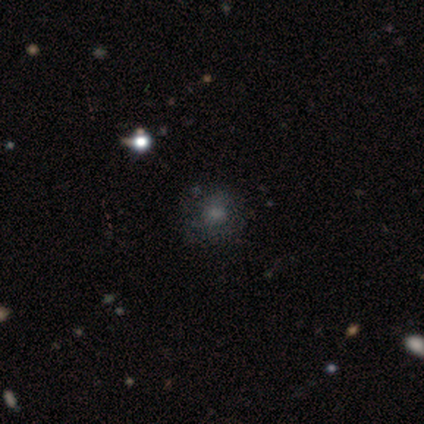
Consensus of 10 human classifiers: A smooth galaxy with no disk features (40%) that is round (75%). Merging: none (71%).